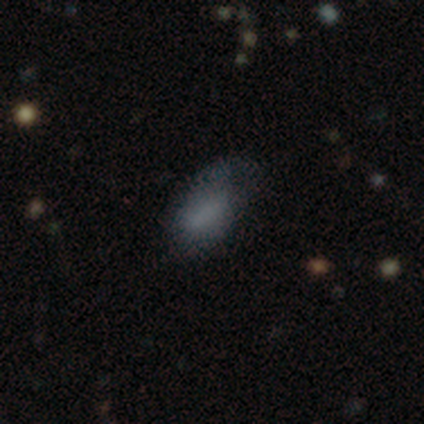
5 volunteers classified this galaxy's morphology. type=smooth (60%); roundness=in between (100%); merging=major disturbance (50%).